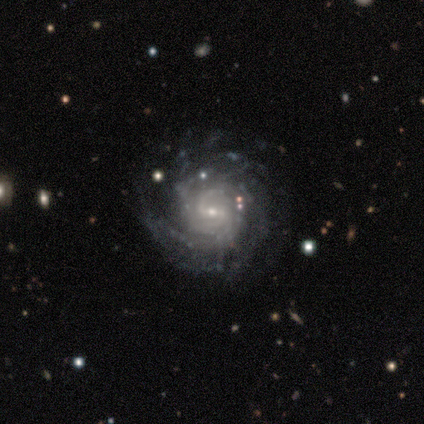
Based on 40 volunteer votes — featured or disk 88%, star or artifact 10%, smooth 2%. Down the decision tree: edge-on disk — no (100%); bar — weak (54%); spiral arms — yes (97%); spiral arm count — can't tell (35%); spiral winding — tight (68%); bulge size — small (77%); merging — none (78%).